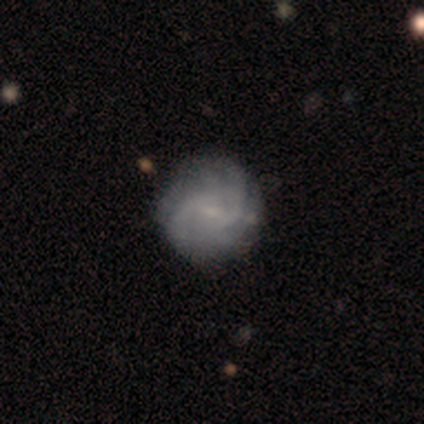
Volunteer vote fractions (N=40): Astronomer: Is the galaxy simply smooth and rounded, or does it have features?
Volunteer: featured or disk — 68%.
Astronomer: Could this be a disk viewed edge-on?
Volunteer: no — 100%.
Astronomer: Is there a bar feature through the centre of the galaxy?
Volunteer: weak — 59% (runner-up: no, 37%).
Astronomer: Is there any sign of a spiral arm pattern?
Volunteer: yes — 85%.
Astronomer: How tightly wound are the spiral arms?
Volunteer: medium — 65%.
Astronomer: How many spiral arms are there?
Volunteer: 2 — 39% (runner-up: can't tell, 26%).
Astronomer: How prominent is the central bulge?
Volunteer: small — 63%.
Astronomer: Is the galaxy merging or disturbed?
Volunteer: none — 40%.